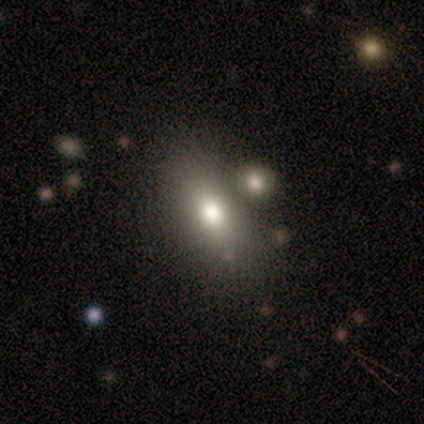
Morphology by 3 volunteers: type=smooth (67%); roundness=cigar-shaped (100%); merging=none (67%).